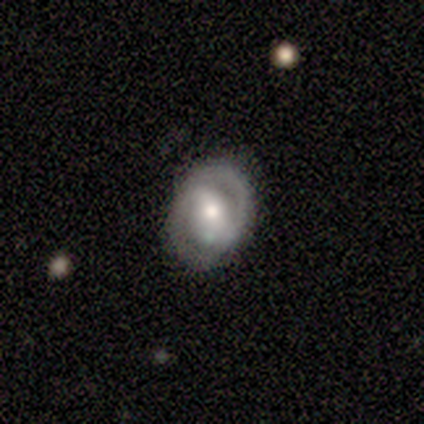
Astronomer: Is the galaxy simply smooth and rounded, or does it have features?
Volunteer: featured or disk — 80%.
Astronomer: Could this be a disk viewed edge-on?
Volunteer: no — 75%.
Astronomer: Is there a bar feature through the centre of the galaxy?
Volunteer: strong — 33%, tied with weak and no at 33%.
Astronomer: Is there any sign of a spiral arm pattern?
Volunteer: yes — 67%.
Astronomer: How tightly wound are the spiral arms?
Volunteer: tight — 50%, tied with medium at 50%.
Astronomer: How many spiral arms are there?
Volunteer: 2 — 100%.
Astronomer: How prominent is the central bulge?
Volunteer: moderate — 100%.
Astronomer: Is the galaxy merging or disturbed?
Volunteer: none — 60% (runner-up: minor disturbance, 40%).